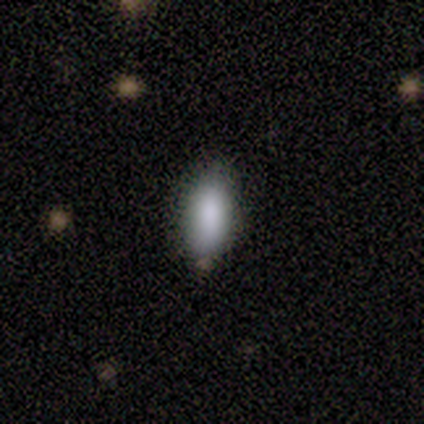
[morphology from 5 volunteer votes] smooth 60%, featured or disk 20%, star or artifact 20%. Down the decision tree: how rounded — in between (100%); merging — none (75%).